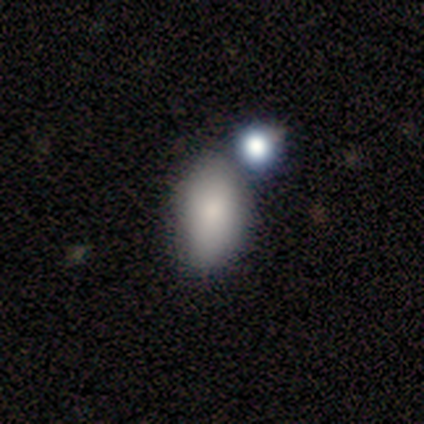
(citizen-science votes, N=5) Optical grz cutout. It shows a smooth galaxy with no disk features (60%) that is in between round and cigar-shaped (100%). Merging: minor disturbance (60%).